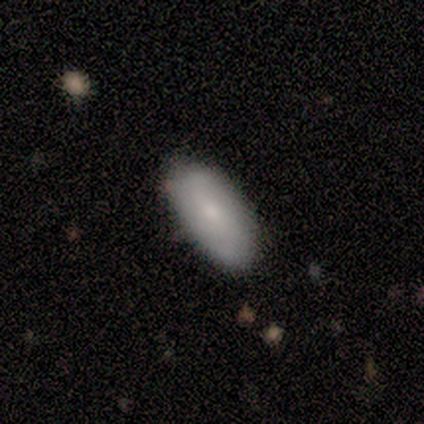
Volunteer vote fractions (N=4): Morphology: type=smooth (50%); roundness=in between (100%); merging=none (67%).